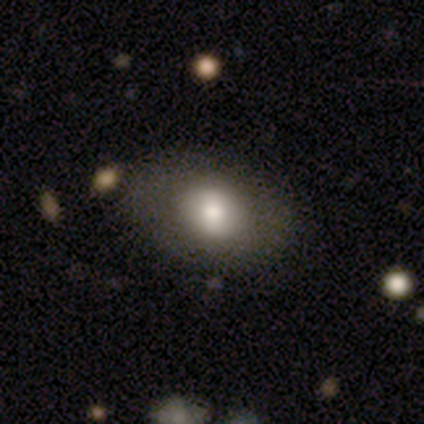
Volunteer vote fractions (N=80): smooth 81%, featured or disk 15%, star or artifact 4%. Down the decision tree: how rounded — in between (68%); merging — none (45%).